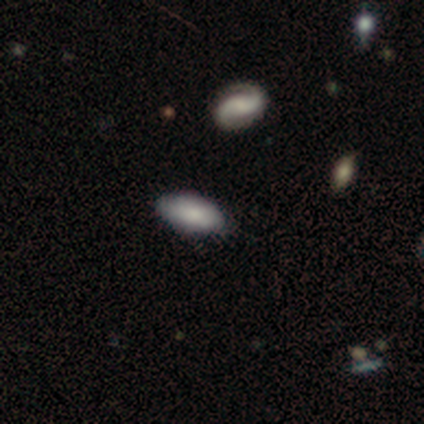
Morphology: type=smooth (100%); roundness=in between (100%); merging=none (100%).